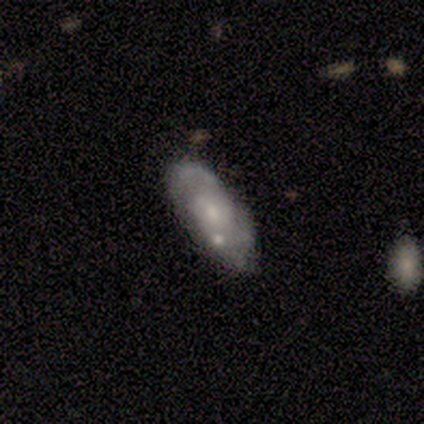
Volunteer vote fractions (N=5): Q: Smooth or featured?
A: featured or disk (100%)
Q: Edge-on disk?
A: no (100%)
Q: Bar?
A: no (60%); runner-up: weak (40%)
Q: Spiral arms?
A: yes (80%); runner-up: no (20%)
Q: Spiral winding?
A: medium (75%); runner-up: loose (25%)
Q: Spiral arm count?
A: 2 (100%)
Q: Bulge size?
A: small (60%); runner-up: moderate (40%)
Q: Merging?
A: none (40%); runner-up: minor disturbance (20%)